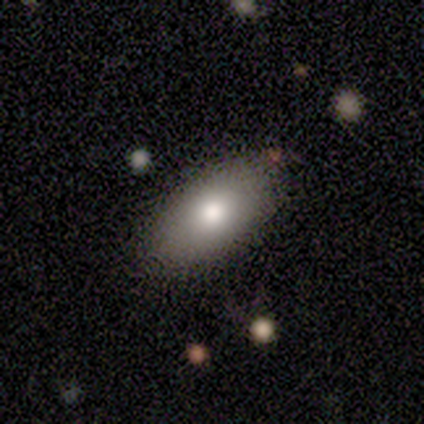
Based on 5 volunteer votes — smooth-or-featured: smooth: 80% | featured or disk: 20% | star or artifact: 0%
  how-rounded: in between: 100% | round: 0% | cigar-shaped: 0%
  merging: none: 60% | minor disturbance: 20% | major disturbance: 20% | merger: 0%